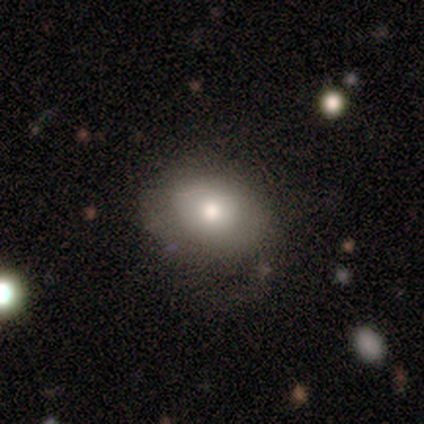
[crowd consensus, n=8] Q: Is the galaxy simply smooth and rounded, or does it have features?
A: smooth — 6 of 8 (75%).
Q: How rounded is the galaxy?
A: in between — 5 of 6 (83%).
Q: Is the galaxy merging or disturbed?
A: none — 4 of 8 (50%).